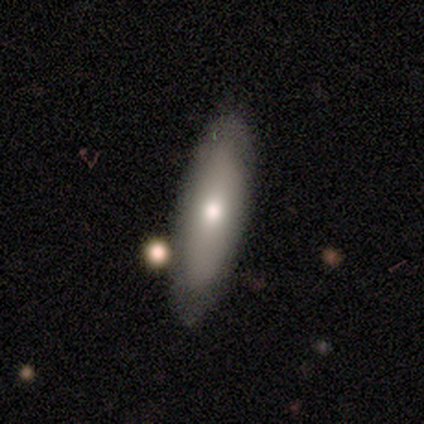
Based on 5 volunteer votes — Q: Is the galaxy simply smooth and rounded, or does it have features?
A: smooth — 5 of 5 (100%).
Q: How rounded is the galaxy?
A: cigar-shaped — 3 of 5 (60%).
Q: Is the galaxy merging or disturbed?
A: none — 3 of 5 (60%).